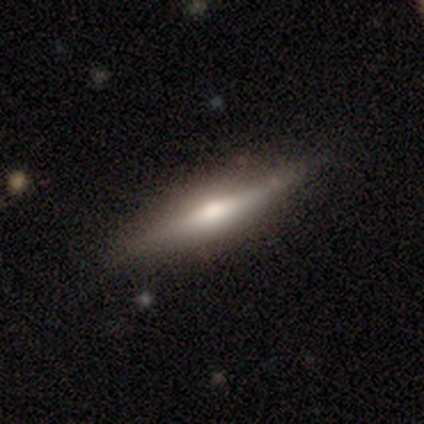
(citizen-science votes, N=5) This is likely a featured or disk galaxy (60%). It is clearly viewed edge-on (100%). Edge-on bulge: clearly rounded (100%). Merging: clearly none (100%).